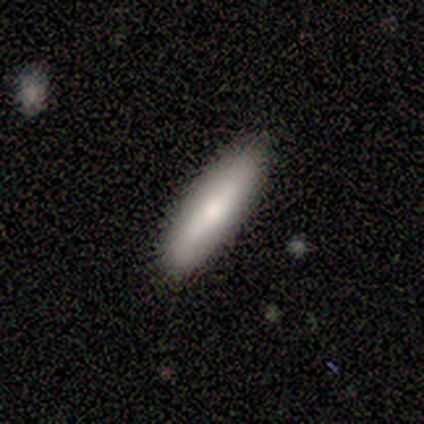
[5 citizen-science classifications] Volunteers were most divided on "smooth or featured": smooth: 80%, featured or disk: 20%, star or artifact: 0%. More confident: how rounded — cigar-shaped (100%); merging — none (100%).